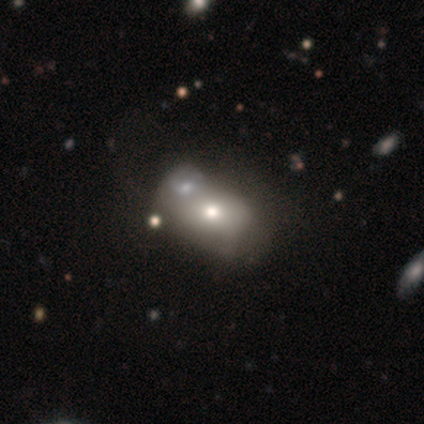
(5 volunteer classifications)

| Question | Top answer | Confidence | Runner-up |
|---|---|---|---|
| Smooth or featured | featured or disk | 60% | smooth (40%) |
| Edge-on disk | no | 67% | yes (33%) |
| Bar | no | 100% | — |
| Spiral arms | yes | 50% | tied: no (50%) |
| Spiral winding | tight | 100% | — |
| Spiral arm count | can't tell | 100% | — |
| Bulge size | moderate | 50% | tied: small (50%) |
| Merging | minor disturbance | 40% | tied: major disturbance (40%) |